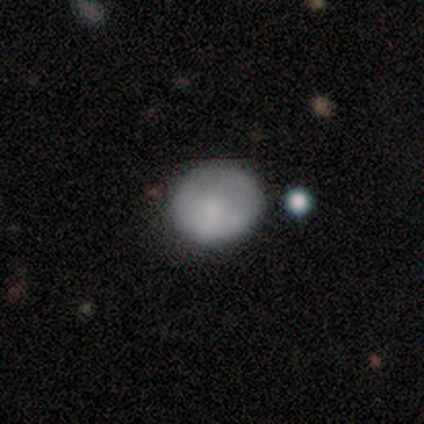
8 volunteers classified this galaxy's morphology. Smooth or featured? smooth (100%)
How rounded? round (88%)
Merging? none (50%, tied with minor disturbance)